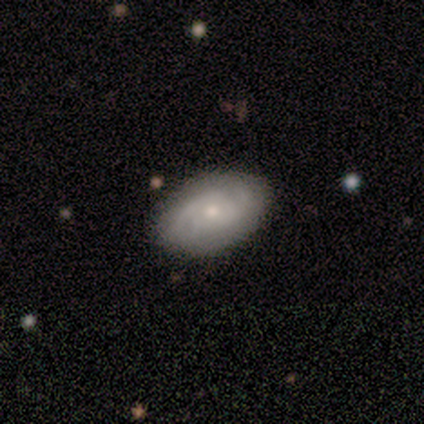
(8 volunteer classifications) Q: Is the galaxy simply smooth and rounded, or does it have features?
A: featured or disk — 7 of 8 (88%).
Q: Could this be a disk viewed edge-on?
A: no — 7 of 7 (100%).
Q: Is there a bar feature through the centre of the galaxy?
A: no — 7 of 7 (100%).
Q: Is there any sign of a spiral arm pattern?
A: yes — 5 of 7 (71%).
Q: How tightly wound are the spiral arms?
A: medium — 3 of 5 (60%).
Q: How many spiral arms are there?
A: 2 — 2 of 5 (40%, tied with can't tell).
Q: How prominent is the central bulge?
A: small — 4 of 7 (57%).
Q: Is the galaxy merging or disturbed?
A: none — 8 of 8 (100%).